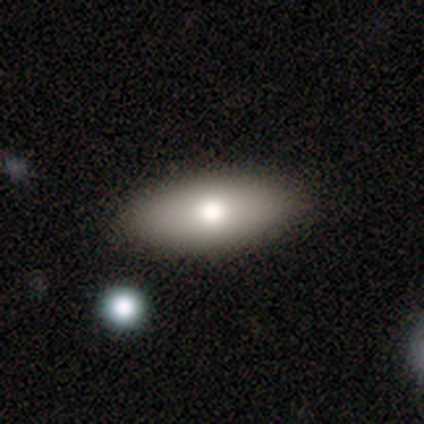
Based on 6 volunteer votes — Smooth or featured? 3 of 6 (50%, tied with featured or disk) said smooth. How rounded? 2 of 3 (67%) said in between. Merging? 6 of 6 (100%) said none.